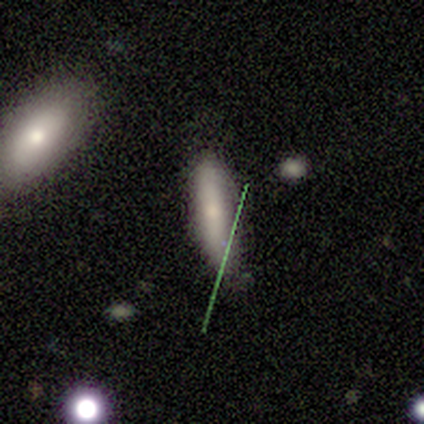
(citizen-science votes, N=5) Q: Smooth or featured?
A: smooth (80%); runner-up: star or artifact (20%)
Q: How rounded?
A: in between (50%); tied with: cigar-shaped (50%)
Q: Merging?
A: none (50%); runner-up: minor disturbance (25%)